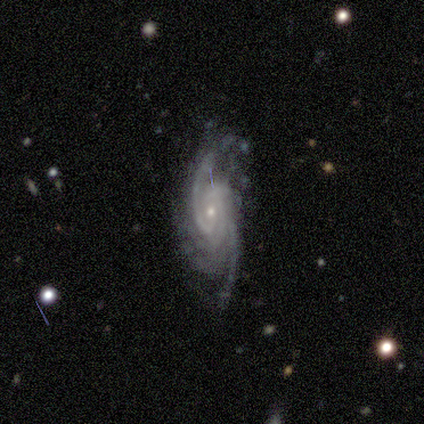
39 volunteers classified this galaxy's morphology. A featured or disk galaxy (92%) with no bar (81%), 4 (32%) tight (55%) spiral arms (97%) and a small central bulge (72%).

Vote fractions:
- Smooth or featured? featured or disk: 92% / star or artifact: 8% / smooth: 0%
- Edge-on disk? no: 89% / yes: 11%
- Bar? no: 81% / weak: 12% / strong: 6%
- Spiral arms? yes: 97% / no: 3%
- Spiral winding? tight: 55% / medium: 35% / loose: 10%
- Spiral arm count? 4: 32% / can't tell: 29% / 2: 23% / 3: 16% / 1: 0% / more than 4: 0%
- Bulge size? small: 72% / moderate: 28% / dominant: 0% / large: 0% / none: 0%
- Merging? none: 44% / minor disturbance: 36% / major disturbance: 19% / merger: 0%